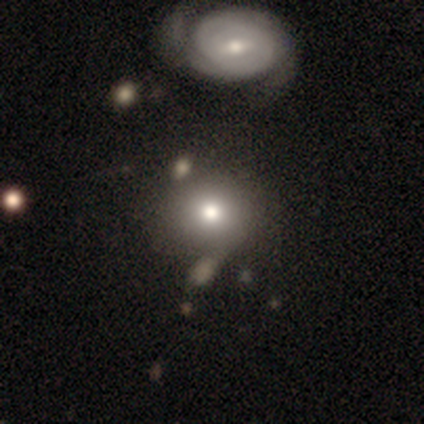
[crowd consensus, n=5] Smooth or featured?
  - featured or disk: 60% *
  - smooth: 40%
  - star or artifact: 0%
Edge-on disk?
  - no: 100% *
  - yes: 0%
Bar?
  - no: 67% *
  - strong: 33%
  - weak: 0%
Spiral arms?
  - no: 67% *
  - yes: 33%
Bulge size?
  - moderate: 67% *
  - small: 33%
  - dominant: 0%
  - large: 0%
  - none: 0%
Merging?
  - none: 60% *
  - major disturbance: 40%
  - minor disturbance: 0%
  - merger: 0%